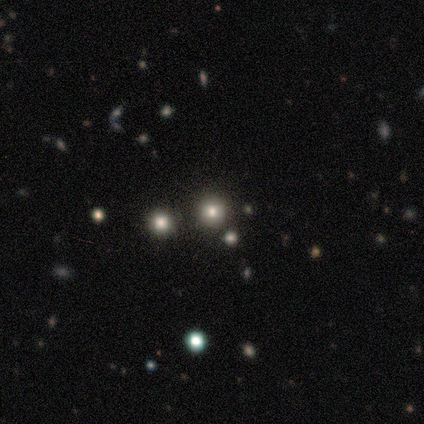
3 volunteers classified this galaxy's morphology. Smooth or featured: smooth — 100%
How rounded: round — 100%
Merging: none — 67% (minor disturbance — 33%)